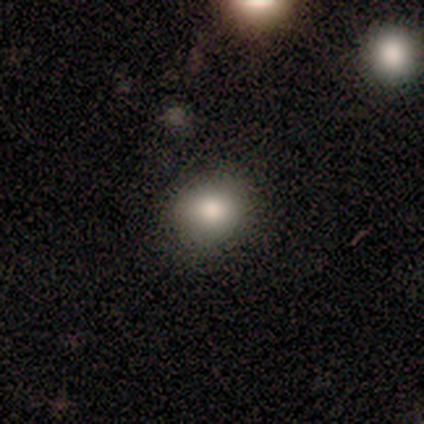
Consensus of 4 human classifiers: Smooth or featured? smooth (75%)
How rounded? round (100%)
Merging? none (100%)